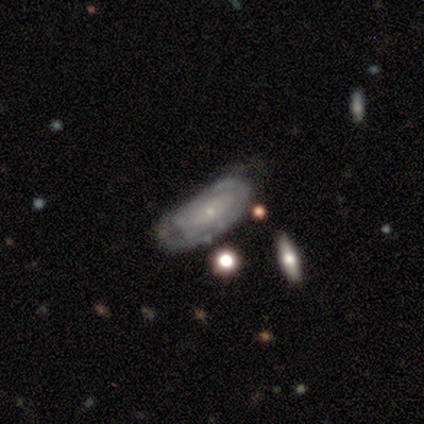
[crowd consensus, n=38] Overall: featured or disk (58%; smooth 32%). Edge-on disk: no (77%). Bar: no (47%; weak 41%). Spiral arms: yes (82%). Spiral arm count: can't tell (43%; 2 21%). Spiral winding: tight (57%; loose 36%). Bulge size: small (76%). Merging: none (53%; minor disturbance 35%).